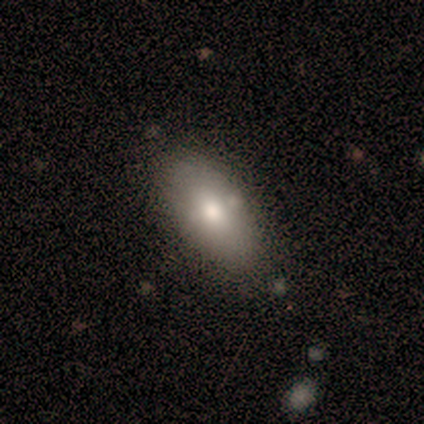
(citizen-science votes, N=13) smooth 85%, featured or disk 15%, star or artifact 0%. Down the decision tree: how rounded — in between (82%); merging — none (62%).